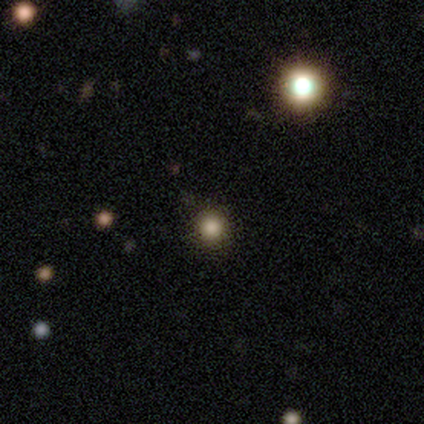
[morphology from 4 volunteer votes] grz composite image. It shows a smooth galaxy with no disk features (75%) that is round (100%). Merging: none (100%).